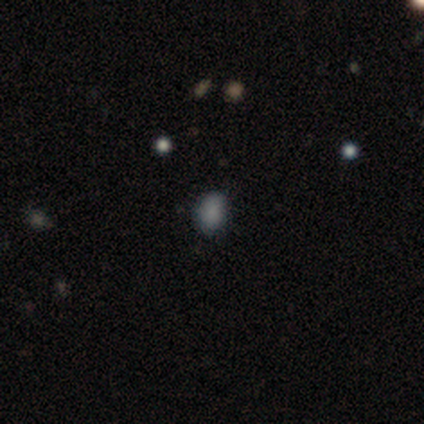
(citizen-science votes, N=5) This is clearly a smooth galaxy (100%). How rounded: likely in between (60%). Merging: clearly none (80%).